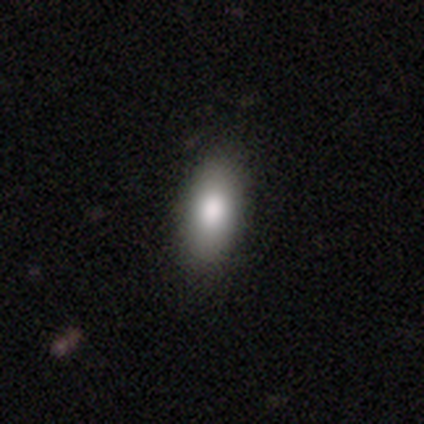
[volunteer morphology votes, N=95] Smooth or featured? smooth (85%)
How rounded? in between (86%)
Merging? none (86%)